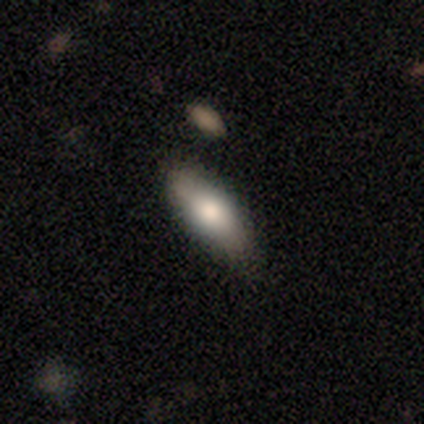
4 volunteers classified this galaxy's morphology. Smooth or featured? smooth (75%)
How rounded? in between (67%)
Merging? none (100%)